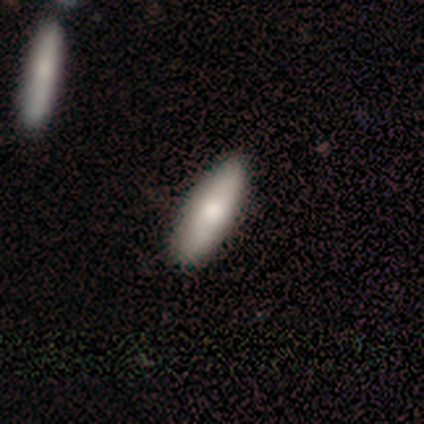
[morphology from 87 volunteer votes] Smooth or featured?
  - smooth: 79% *
  - featured or disk: 14%
  - star or artifact: 7%
How rounded?
  - in between: 54% *
  - cigar-shaped: 46%
  - round: 0%
Merging?
  - none: 80% *
  - minor disturbance: 17%
  - major disturbance: 1%
  - merger: 1%